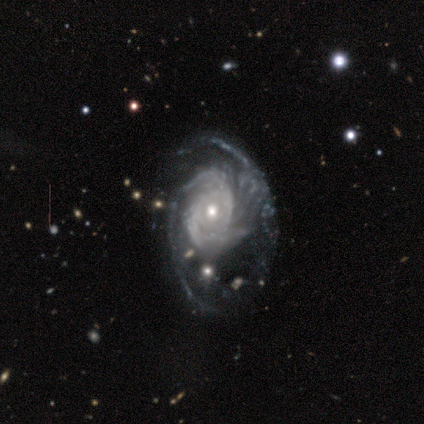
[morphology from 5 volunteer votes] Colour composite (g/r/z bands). It shows a featured or disk galaxy (100%) with no bar (100%), 2 (40%, tied with can't tell) medium (60%) spiral arms (100%) and a moderate central bulge (80%). Merging: minor disturbance (40%, tied with major disturbance).